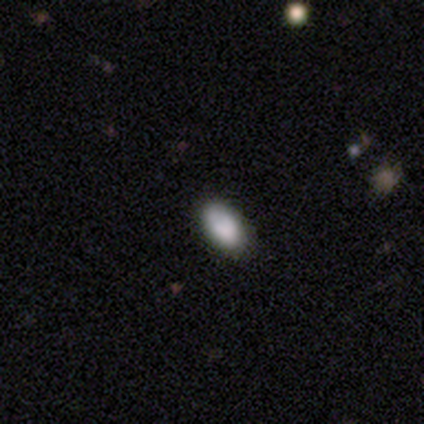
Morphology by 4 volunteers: type=smooth (75%); roundness=in between (67%); merging=none (100%).